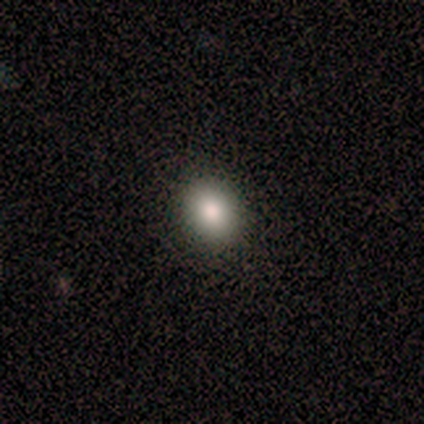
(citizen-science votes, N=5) Q: Smooth or featured?
A: smooth (100%)
Q: How rounded?
A: in between (60%); runner-up: round (40%)
Q: Merging?
A: none (80%); runner-up: major disturbance (20%)